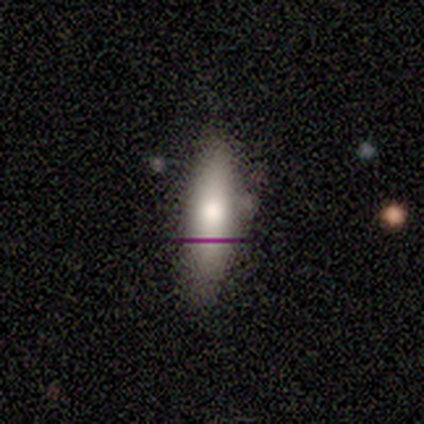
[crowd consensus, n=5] Smooth or featured? 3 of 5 (60%) said smooth. How rounded? 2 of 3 (67%) said cigar-shaped. Merging? 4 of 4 (100%) said none.